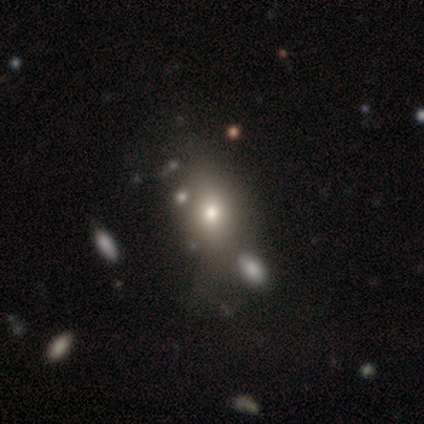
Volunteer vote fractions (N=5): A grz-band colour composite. It shows a smooth galaxy with no disk features (60%) that is in between round and cigar-shaped (67%). Merging: none (60%).